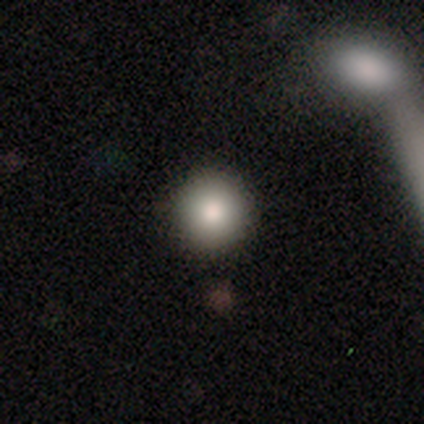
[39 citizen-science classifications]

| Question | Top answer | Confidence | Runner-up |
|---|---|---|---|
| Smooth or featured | smooth | 85% | star or artifact (10%) |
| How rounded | round | 97% | in between (3%) |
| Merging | none | 89% | merger (6%) |